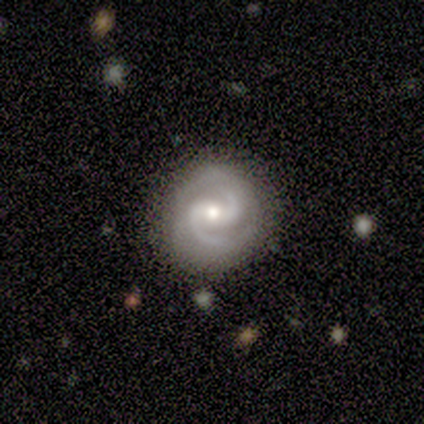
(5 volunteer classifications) Morphology: type=featured or disk (100%); edge-on=no (100%); bar=strong (40%, tied with no); spiral arms=yes (100%); winding=medium (60%); arm count=2 (80%); bulge=moderate (80%); merging=none (80%).